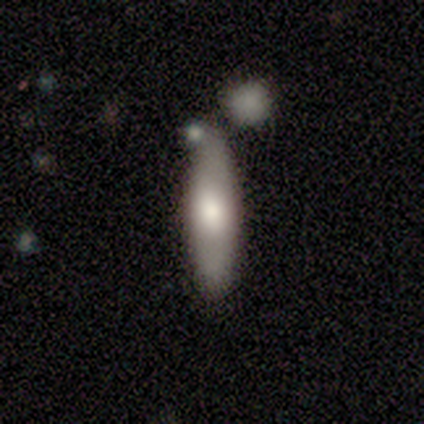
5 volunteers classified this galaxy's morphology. smooth_or_featured: smooth (p=0.60) [alt: featured or disk p=0.40]
how_rounded: in between (p=0.67) [alt: cigar-shaped p=0.33]
merging: none (p=1.00)